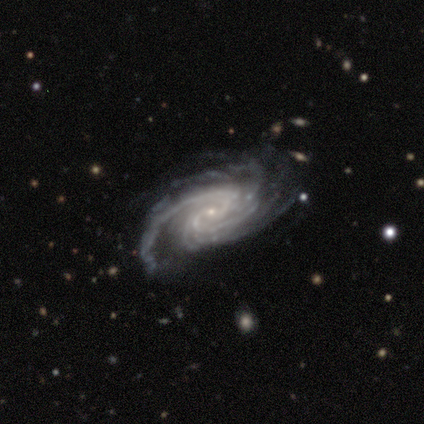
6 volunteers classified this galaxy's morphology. Volunteers were most divided on "spiral arm count" (3-way tie): 4: 33%, more than 4: 33%, can't tell: 33%, 1: 0%, 2: 0%, 3: 0%. More confident: smooth or featured — featured or disk (100%); edge-on disk — no (100%); spiral arms — yes (100%); bulge size — small (100%); spiral winding — tight (83%); merging — none (67%); bar — no (50%).